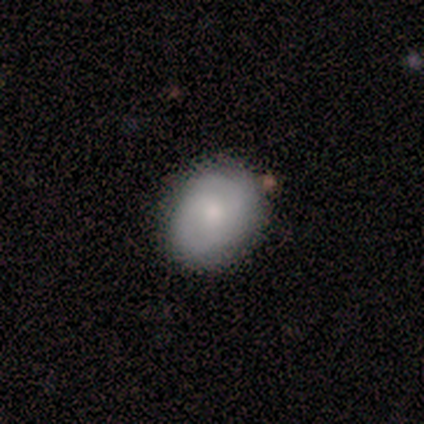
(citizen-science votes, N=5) This appears to be a smooth galaxy with no disk features (80%) that is round (50%, tied with in between). Merging: none (100%).